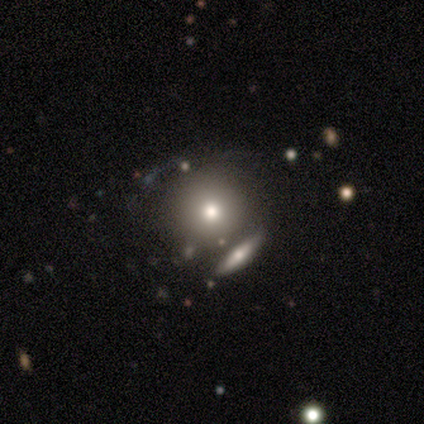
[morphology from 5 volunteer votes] Volunteers were most divided on "smooth or featured": smooth: 80%, featured or disk: 20%, star or artifact: 0%. More confident: how rounded — round (100%); merging — none (80%).